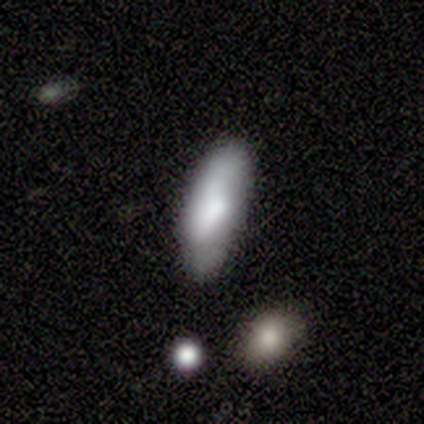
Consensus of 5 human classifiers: smooth_or_featured: smooth (p=1.00)
how_rounded: in between (p=0.80) [alt: cigar-shaped p=0.20]
merging: minor disturbance (p=0.80) [alt: none p=0.20]